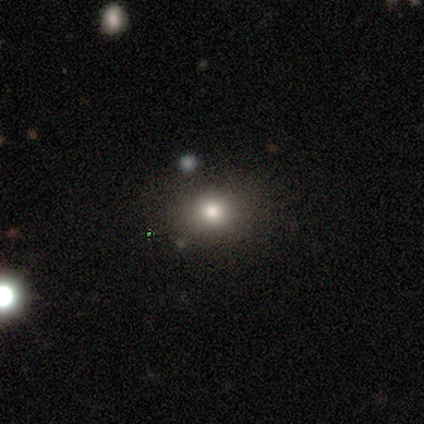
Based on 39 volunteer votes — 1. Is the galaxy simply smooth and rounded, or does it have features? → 74% smooth, 15% star or artifact, 10% featured or disk.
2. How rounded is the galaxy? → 66% round, 31% in between, 3% cigar-shaped.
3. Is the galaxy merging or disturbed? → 94% none, 6% minor disturbance, 0% major disturbance, 0% merger.